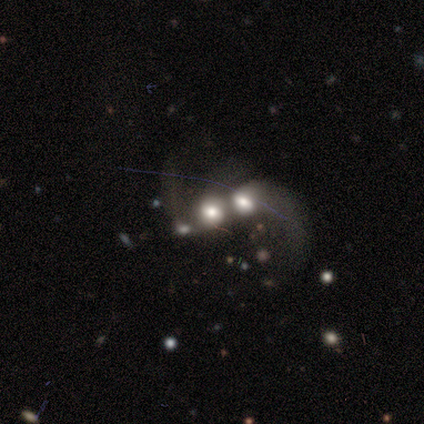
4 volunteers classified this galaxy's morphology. Smooth or featured: smooth — 100%
How rounded: in between — 50% (tied with cigar-shaped — 50%)
Merging: merger — 100%